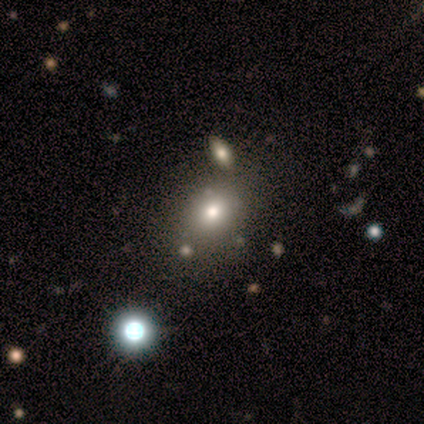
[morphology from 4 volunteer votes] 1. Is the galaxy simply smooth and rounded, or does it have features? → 100% smooth, 0% featured or disk, 0% star or artifact.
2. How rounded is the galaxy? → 100% in between, 0% round, 0% cigar-shaped.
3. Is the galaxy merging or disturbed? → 100% none, 0% minor disturbance, 0% major disturbance, 0% merger.